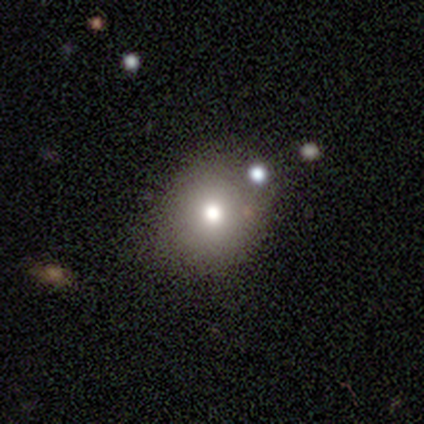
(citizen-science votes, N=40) Morphology: type=smooth (72%); roundness=round (66%); merging=none (75%).